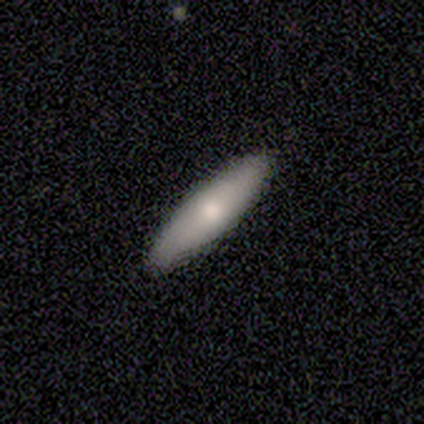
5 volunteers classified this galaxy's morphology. Overall: smooth (60%; featured or disk 40%). How rounded: cigar-shaped (67%; in between 33%). Merging: none (100%).